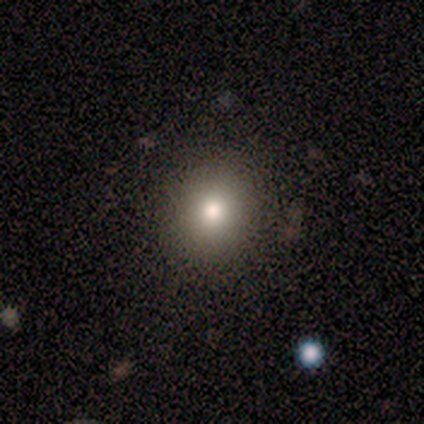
Smooth or featured: smooth — 50% (tied with featured or disk — 50%)
How rounded: round — 100%
Merging: none — 75% (major disturbance — 25%)